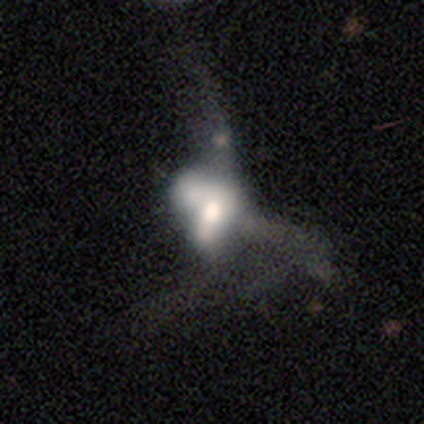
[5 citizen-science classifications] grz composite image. It shows a featured or disk galaxy (60%) with no bar (67%), no spiral arms (100%) and a moderate central bulge (67%). Merging: merger (60%).